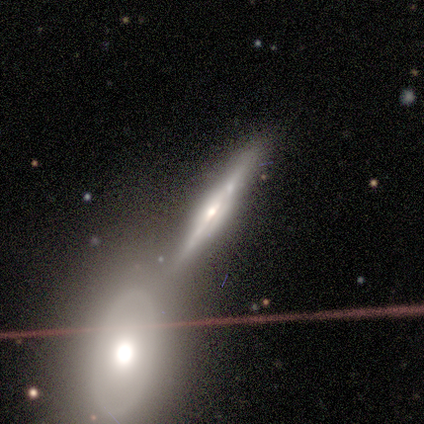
Overall: featured or disk (100%). Edge-on disk: yes (60%; no 40%). Edge-on bulge: rounded (67%; none 33%). Merging: none (80%).